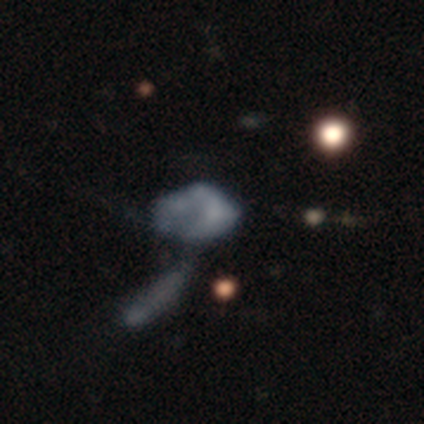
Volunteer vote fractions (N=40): A featured or disk galaxy (48%) with no bar (100%), no spiral arms (83%) and no central bulge (89%). Merging: merger (57%).